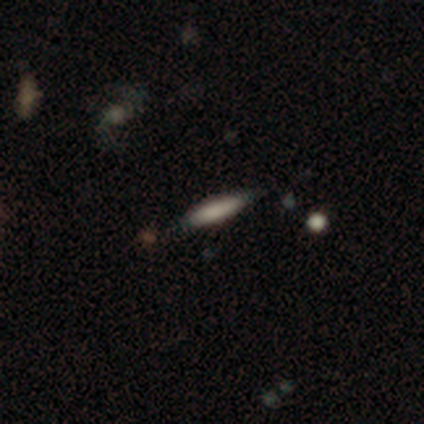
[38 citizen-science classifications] smooth_or_featured: smooth (p=0.71) [alt: featured or disk p=0.18]
how_rounded: cigar-shaped (p=0.63) [alt: in between p=0.37]
merging: none (p=0.68) [alt: minor disturbance p=0.12]